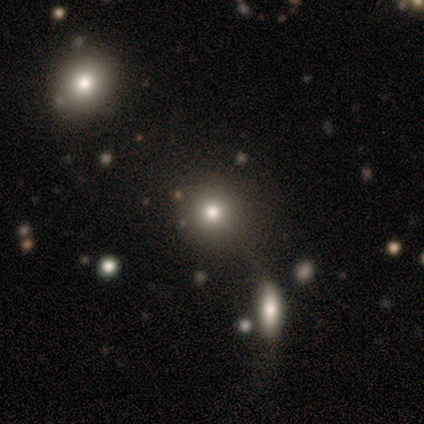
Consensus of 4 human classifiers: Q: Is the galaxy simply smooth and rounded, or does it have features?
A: smooth — 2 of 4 (50%, tied with star or artifact).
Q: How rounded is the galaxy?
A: round — 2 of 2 (100%).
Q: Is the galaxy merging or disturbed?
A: minor disturbance — 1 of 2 (50%, tied with merger).